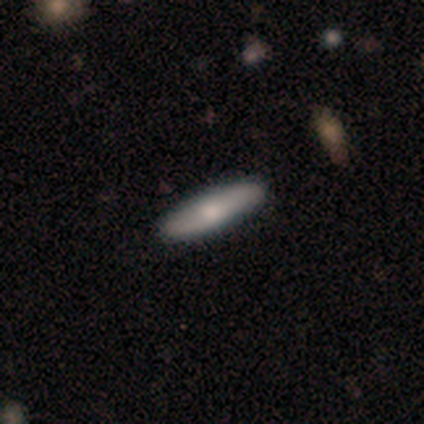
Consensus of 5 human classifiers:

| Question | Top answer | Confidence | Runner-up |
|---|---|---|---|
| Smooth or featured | featured or disk | 60% | smooth (40%) |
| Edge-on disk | yes | 100% | — |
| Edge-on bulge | rounded | 100% | — |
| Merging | none | 100% | — |